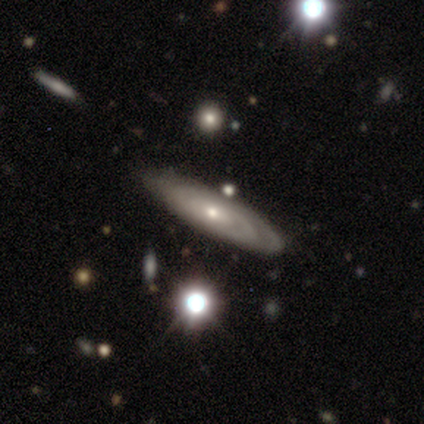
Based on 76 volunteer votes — Morphology: type=featured or disk (86%); edge-on=no (82%); bar=no (83%); spiral arms=yes (79%); winding=tight (79%); arm count=can't tell (64%); bulge=small (64%); merging=none (42%).